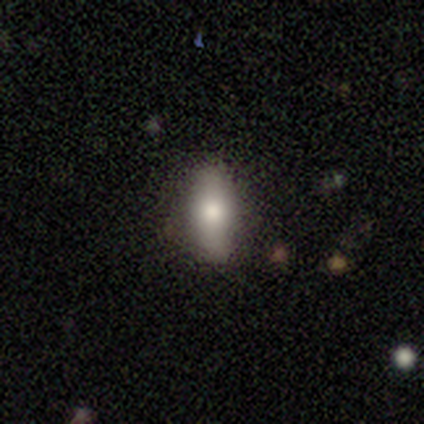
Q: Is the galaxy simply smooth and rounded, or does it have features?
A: smooth — 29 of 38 (76%).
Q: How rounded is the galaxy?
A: in between — 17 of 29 (59%).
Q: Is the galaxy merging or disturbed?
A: none — 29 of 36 (81%).